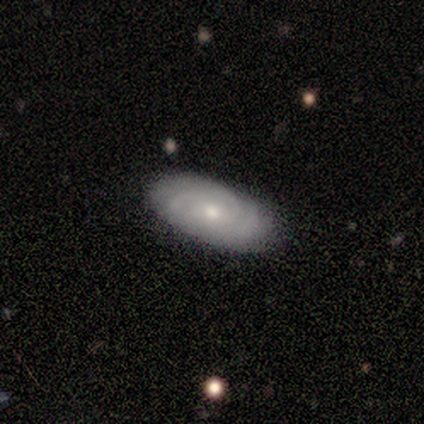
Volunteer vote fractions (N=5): featured or disk 60%, smooth 20%, star or artifact 20%. Down the decision tree: edge-on disk — no (100%); bar — no (100%); spiral arms — yes (67%); spiral arm count — 2 (50%, tied with can't tell); spiral winding — tight (50%, tied with loose); bulge size — moderate (67%); merging — none (75%).